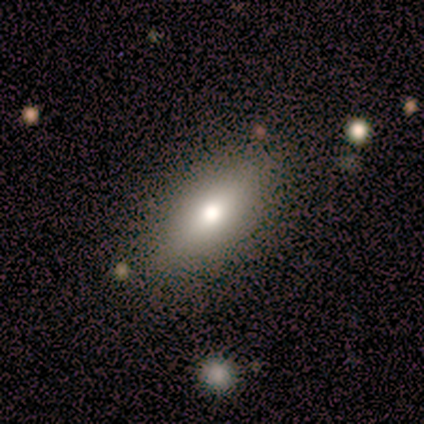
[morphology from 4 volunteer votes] Overall: smooth (100%). How rounded: in between (50%; round 25%). Merging: none (75%).